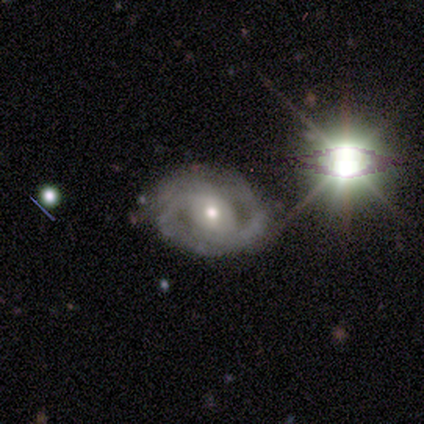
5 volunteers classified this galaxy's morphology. featured or disk 100%, smooth 0%, star or artifact 0%. Down the decision tree: edge-on disk — no (100%); bar — no (60%); spiral arms — no (60%); bulge size — moderate (100%); merging — none (100%).